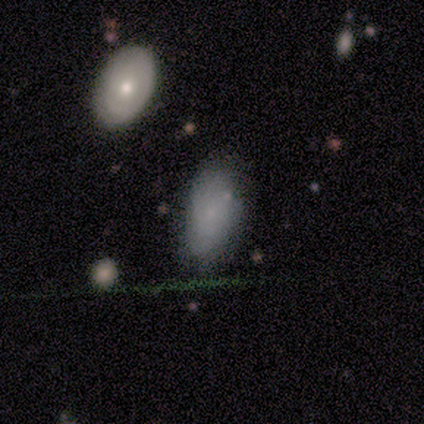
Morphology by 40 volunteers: Q: Smooth or featured?
A: smooth (70%); runner-up: featured or disk (25%)
Q: How rounded?
A: in between (96%); runner-up: round (4%)
Q: Merging?
A: none (74%); runner-up: minor disturbance (21%)